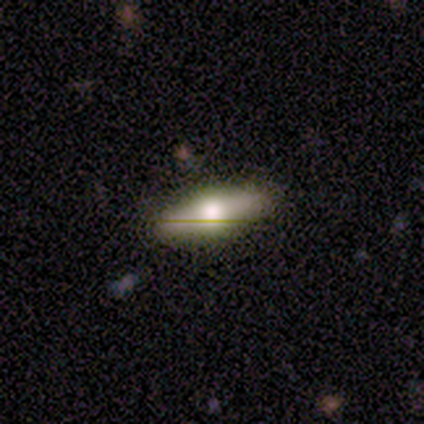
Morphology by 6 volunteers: smooth_or_featured: featured or disk (p=0.67) [alt: smooth p=0.17]
disk_edge_on: yes (p=1.00)
edge_on_bulge: rounded (p=1.00)
merging: none (p=0.80) [alt: minor disturbance p=0.20]